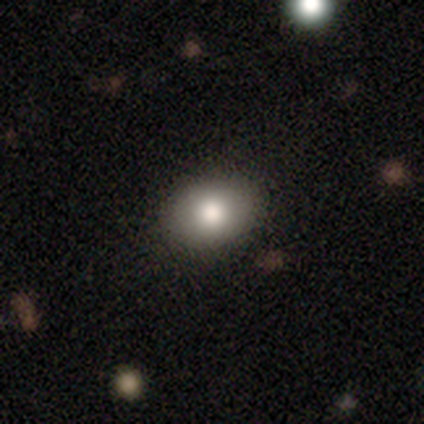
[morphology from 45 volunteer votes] Overall: smooth (82%). How rounded: in between (54%; round 46%). Merging: none (93%).